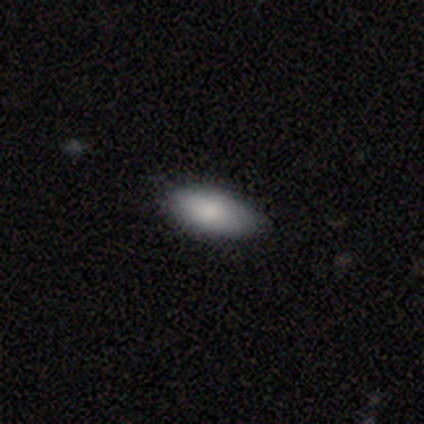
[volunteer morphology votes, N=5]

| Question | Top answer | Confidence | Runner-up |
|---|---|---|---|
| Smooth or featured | smooth | 100% | — |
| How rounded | in between | 100% | — |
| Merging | none | 100% | — |